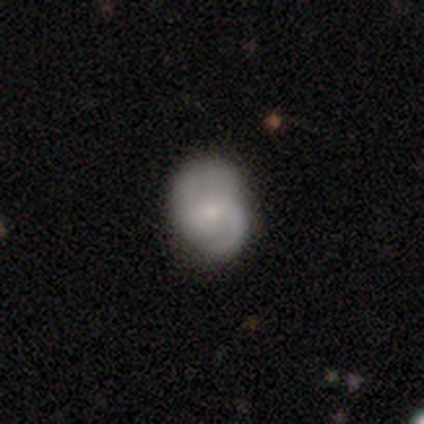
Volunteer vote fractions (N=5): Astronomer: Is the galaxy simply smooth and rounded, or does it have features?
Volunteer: featured or disk — 80%.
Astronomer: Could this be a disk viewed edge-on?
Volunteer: no — 75%.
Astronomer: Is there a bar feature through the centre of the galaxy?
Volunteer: weak — 67%.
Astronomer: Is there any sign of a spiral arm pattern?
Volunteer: yes — 100%.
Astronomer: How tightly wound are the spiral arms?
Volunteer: tight — 67%.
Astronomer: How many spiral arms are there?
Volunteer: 2 — 100%.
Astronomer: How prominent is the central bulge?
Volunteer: moderate — 67%.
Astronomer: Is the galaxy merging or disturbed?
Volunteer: none — 75%.